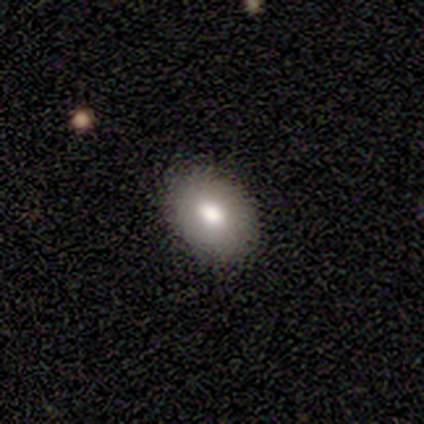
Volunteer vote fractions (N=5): Overall: smooth (80%). How rounded: in between (75%). Merging: none (60%; minor disturbance 40%).